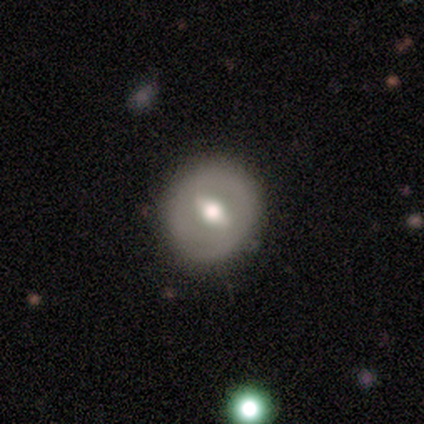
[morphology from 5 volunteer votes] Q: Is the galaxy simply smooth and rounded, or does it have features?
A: featured or disk — 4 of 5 (80%).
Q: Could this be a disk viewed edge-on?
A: yes — 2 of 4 (50%, tied with no).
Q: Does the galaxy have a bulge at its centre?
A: rounded — 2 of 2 (100%).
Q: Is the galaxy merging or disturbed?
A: none — 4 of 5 (80%).